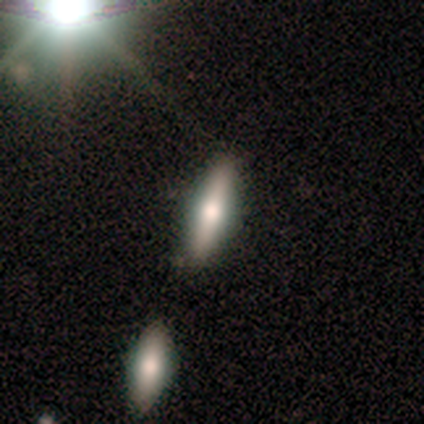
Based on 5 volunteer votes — This appears to be a featured or disk galaxy (60%) viewed edge-on (100%) with a rounded central bulge (100%). Merging: none (100%).